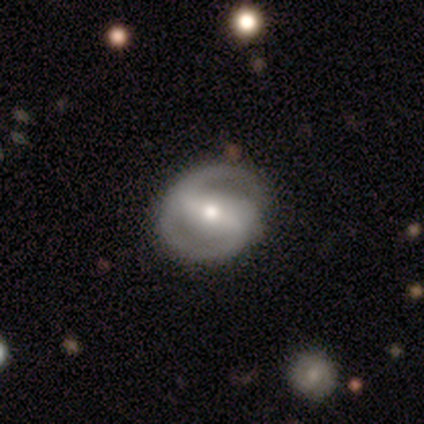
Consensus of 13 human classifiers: Morphology: type=featured or disk (92%); edge-on=no (92%); bar=strong (73%); spiral arms=yes (73%); winding=medium (62%); arm count=2 (75%); bulge=moderate (73%); merging=none (77%).